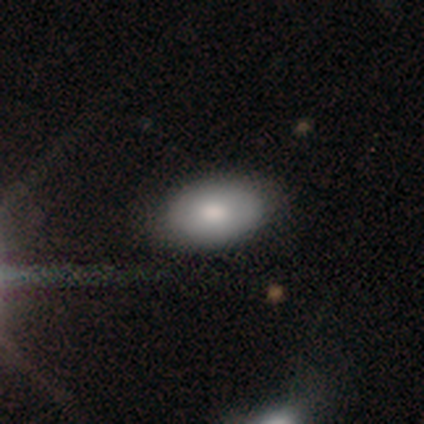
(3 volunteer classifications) Volunteers were most divided on "how rounded": in between: 67%, round: 33%, cigar-shaped: 0%. More confident: smooth or featured — smooth (100%); merging — none (100%).